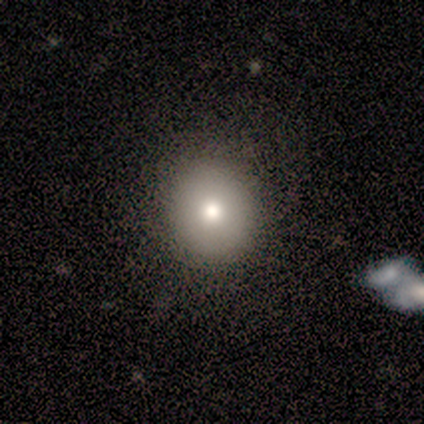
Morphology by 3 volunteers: smooth 67%, star or artifact 33%, featured or disk 0%. Down the decision tree: how rounded — round (50%, tied with in between); merging — none (100%).